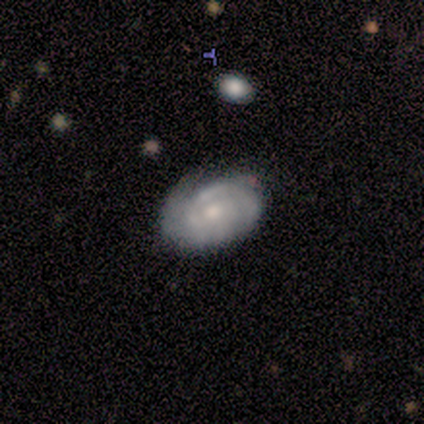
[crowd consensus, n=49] smooth-or-featured: featured or disk: 76% | smooth: 20% | star or artifact: 4%
  disk-edge-on: no: 95% | yes: 5%
    bar: no: 80% | weak: 20% | strong: 0%
    has-spiral-arms: yes: 94% | no: 6%
      spiral-winding: tight: 82% | medium: 18% | loose: 0%
      spiral-arm-count: 2: 52% | can't tell: 21% | 1: 18% | 3: 6% | 4: 3% | more than 4: 0%
    bulge-size: moderate: 54% | small: 37% | dominant: 3% | large: 3% | none: 3%
  merging: none: 60% | minor disturbance: 26% | major disturbance: 9% | merger: 6%